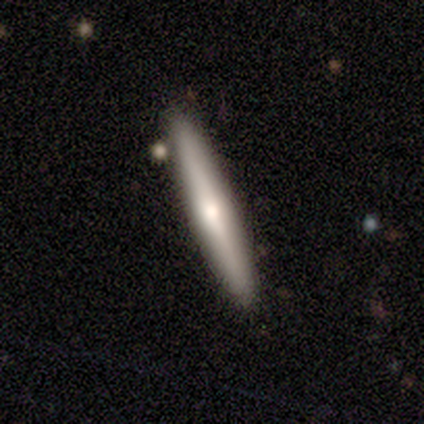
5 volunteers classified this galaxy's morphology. type=featured or disk (60%); edge-on=yes (100%); edge-on bulge=rounded (67%); merging=none (80%).